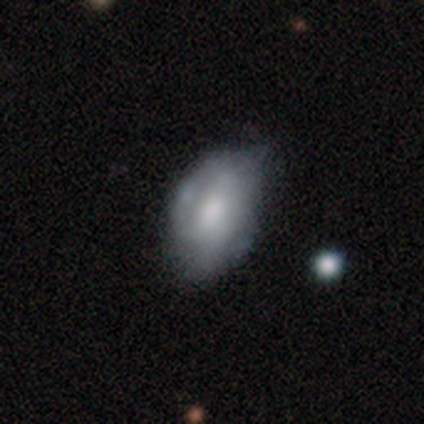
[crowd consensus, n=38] Smooth or featured? 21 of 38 (55%) said smooth. How rounded? 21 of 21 (100%) said in between. Merging? 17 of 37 (46%) said minor disturbance.